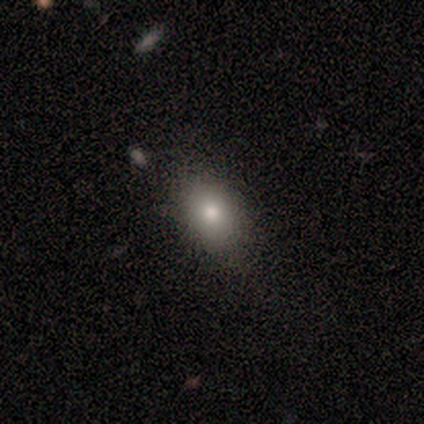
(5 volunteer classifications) Smooth or featured? smooth (60%)
How rounded? in between (100%)
Merging? none (50%, tied with minor disturbance)